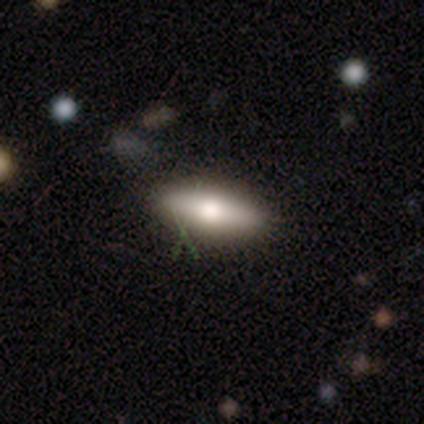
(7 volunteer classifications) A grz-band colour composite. It shows a smooth galaxy with no disk features (57%) that is in between round and cigar-shaped (75%). Merging: none (67%).